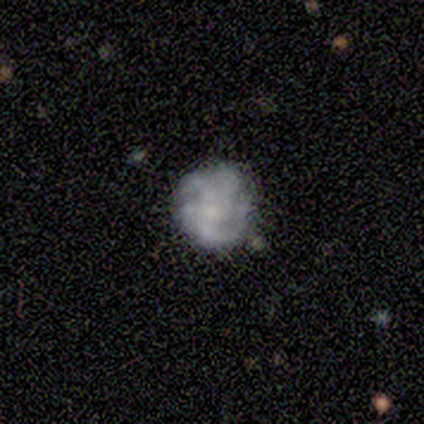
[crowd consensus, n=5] Smooth or featured? featured or disk (80%)
Edge-on disk? no (100%)
Bar? no (75%)
Spiral arms? yes (50%, tied with no)
Spiral winding? tight (100%)
Spiral arm count? more than 4 (50%, tied with can't tell)
Bulge size? none (100%)
Merging? none (75%)